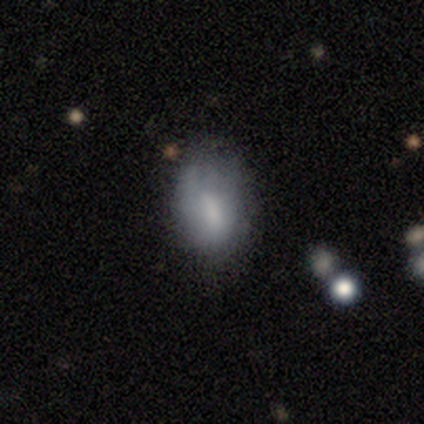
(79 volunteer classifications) Morphology: type=smooth (68%); roundness=in between (83%); merging=none (56%).